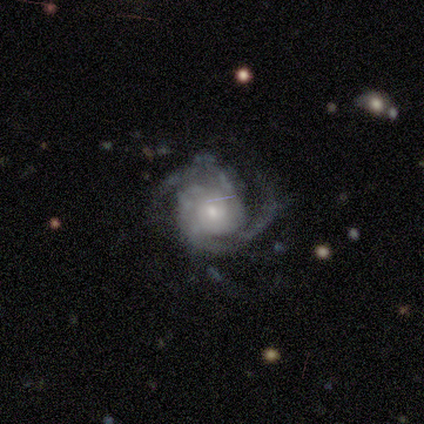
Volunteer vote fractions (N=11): Volunteers were most divided on "spiral arm count" (2-way tie): 2: 45%, 3: 45%, 4: 9%, 1: 0%, more than 4: 0%, can't tell: 0%; "bulge size" (2-way tie): moderate: 45%, small: 45%, large: 9%, dominant: 0%, none: 0%. More confident: smooth or featured — featured or disk (100%); edge-on disk — no (100%); spiral arms — yes (100%); bar — no (82%); merging — none (82%); spiral winding — medium (64%).